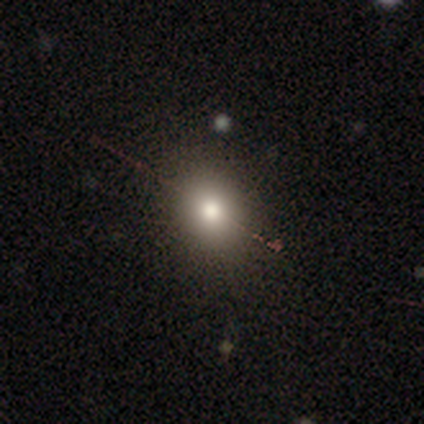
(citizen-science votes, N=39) Smooth or featured: smooth — 64% (featured or disk — 21%)
How rounded: round — 80% (in between — 20%)
Merging: none — 88% (minor disturbance — 6%)